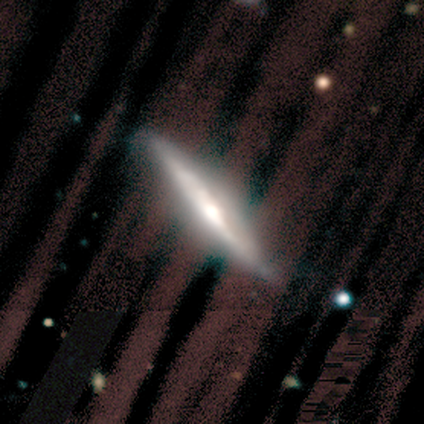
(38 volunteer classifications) Volunteers were most divided on "edge-on bulge": rounded: 61%, boxy: 30%, none: 9%. More confident: edge-on disk — yes (85%); smooth or featured — featured or disk (71%); merging — none (58%).